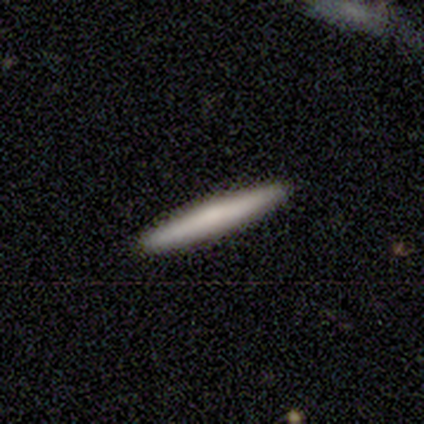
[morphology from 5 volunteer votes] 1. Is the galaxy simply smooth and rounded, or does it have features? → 80% smooth, 20% featured or disk, 0% star or artifact.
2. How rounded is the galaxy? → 100% cigar-shaped, 0% round, 0% in between.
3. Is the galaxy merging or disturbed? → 100% none, 0% minor disturbance, 0% major disturbance, 0% merger.